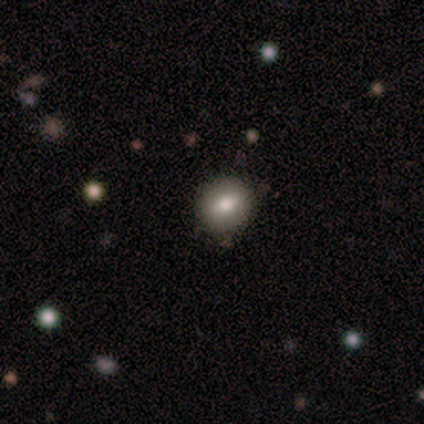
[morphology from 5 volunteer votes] This is clearly a smooth galaxy (100%). How rounded: clearly round (100%). Merging: clearly none (100%).